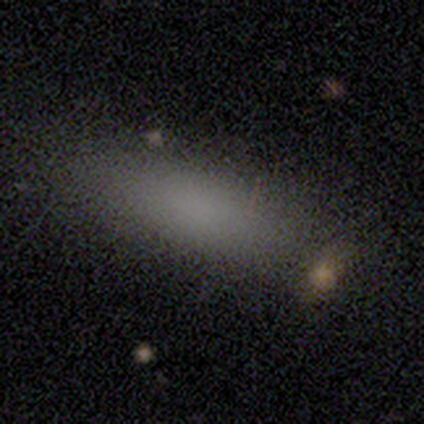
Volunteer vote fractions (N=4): Smooth or featured? smooth (75%)
How rounded? in between (67%)
Merging? none (67%)